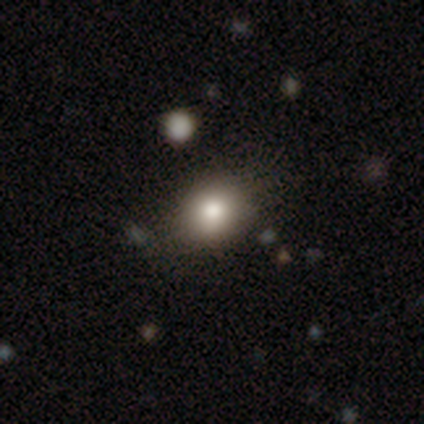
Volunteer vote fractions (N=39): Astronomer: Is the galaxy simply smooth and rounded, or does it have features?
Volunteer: smooth — 77%.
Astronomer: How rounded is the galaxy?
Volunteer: round — 57% (runner-up: in between, 43%).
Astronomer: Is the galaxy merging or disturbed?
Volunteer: none — 66%.